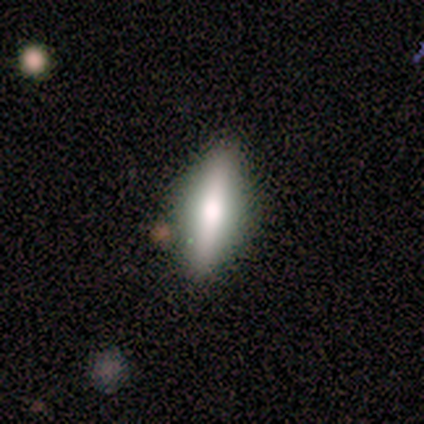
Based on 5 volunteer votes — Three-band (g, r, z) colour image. It shows a featured or disk galaxy (60%) viewed edge-on (100%) with a rounded central bulge (67%). Merging: none (80%).